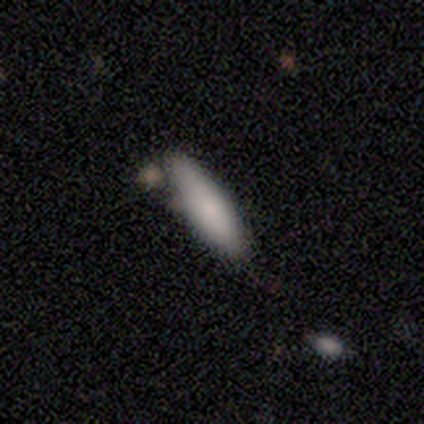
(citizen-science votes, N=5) Smooth or featured? smooth (100%)
How rounded? cigar-shaped (60%)
Merging? none (60%)